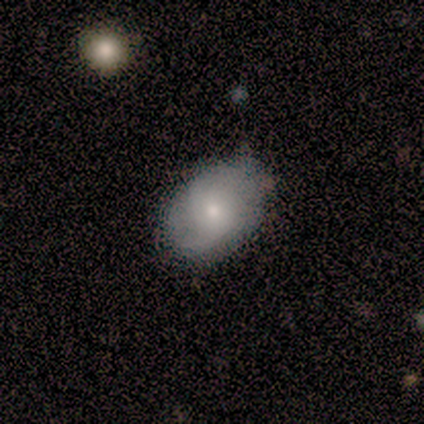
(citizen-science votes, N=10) Overall: smooth (70%; featured or disk 30%). How rounded: in between (86%). Merging: none (70%; minor disturbance 30%).